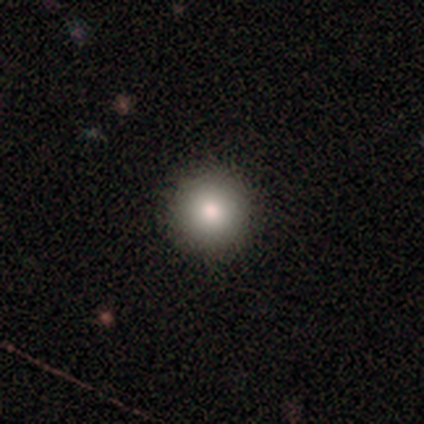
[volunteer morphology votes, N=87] Smooth or featured?
  - smooth: 82% *
  - featured or disk: 10%
  - star or artifact: 8%
How rounded?
  - round: 96% *
  - in between: 4%
  - cigar-shaped: 0%
Merging?
  - none: 94% *
  - minor disturbance: 5%
  - major disturbance: 1%
  - merger: 0%